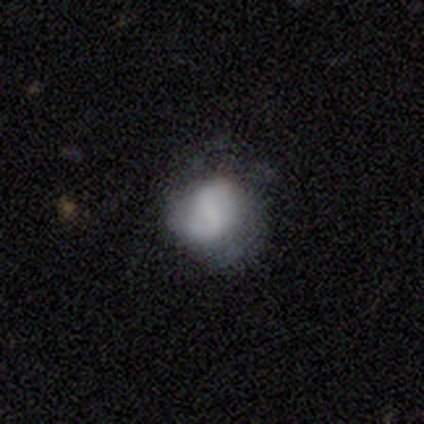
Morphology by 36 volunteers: Volunteers were most divided on "smooth or featured": smooth: 58%, featured or disk: 39%, star or artifact: 3%. More confident: how rounded — round (76%); merging — none (66%).